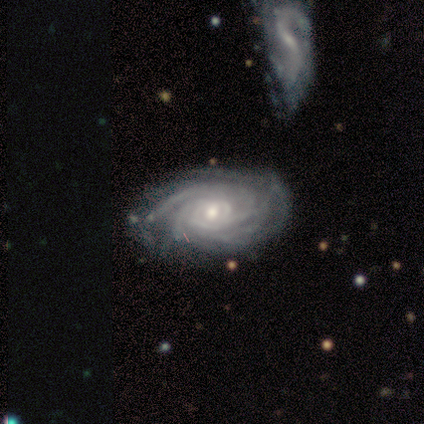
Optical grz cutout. It shows a featured or disk galaxy (100%) with no bar (100%), more than 4 (50%, tied with can't tell) tight (100%) spiral arms (100%) and a moderate central bulge (50%, tied with small). Merging: none (100%).